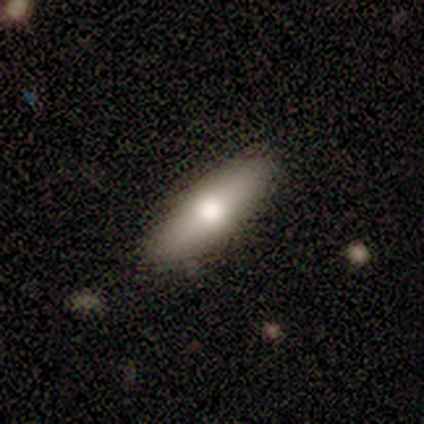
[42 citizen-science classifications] Smooth or featured?
  - smooth: 67% *
  - featured or disk: 26%
  - star or artifact: 7%
How rounded?
  - cigar-shaped: 57% *
  - in between: 43%
  - round: 0%
Merging?
  - none: 64% *
  - merger: 5%
  - major disturbance: 3%
  - minor disturbance: 0%